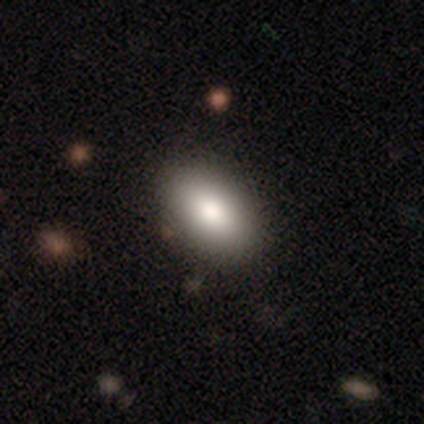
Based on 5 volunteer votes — Smooth or featured: smooth — 80% (star or artifact — 20%)
How rounded: in between — 100%
Merging: none — 100%